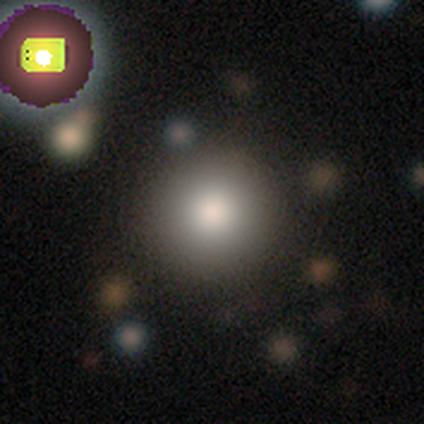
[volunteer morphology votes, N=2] A smooth galaxy with no disk features (100%) that is round (100%).

Vote fractions:
- Smooth or featured? smooth: 100% / featured or disk: 0% / star or artifact: 0%
- How rounded? round: 100% / in between: 0% / cigar-shaped: 0%
- Merging? none: 100% / minor disturbance: 0% / major disturbance: 0% / merger: 0%